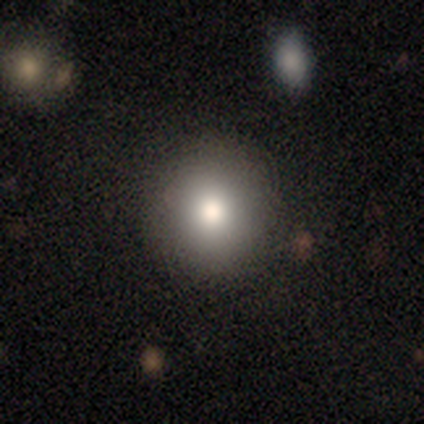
Overall: smooth (79%). How rounded: round (94%). Merging: none (92%).